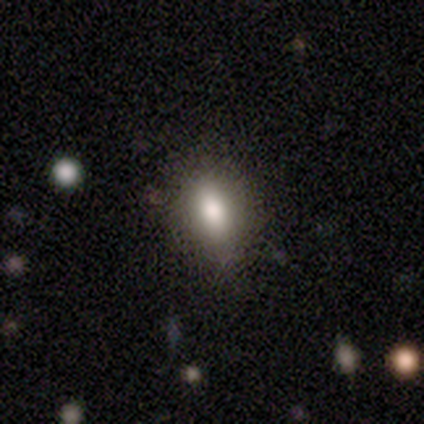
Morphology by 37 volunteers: type=smooth (86%); roundness=in between (56%); merging=none (64%).